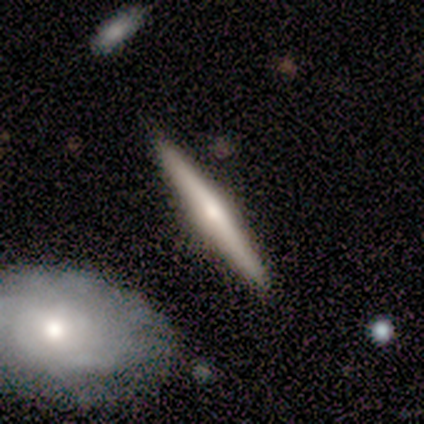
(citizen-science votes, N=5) smooth-or-featured: smooth: 60% | featured or disk: 40% | star or artifact: 0%
  how-rounded: cigar-shaped: 100% | round: 0% | in between: 0%
  merging: none: 80% | major disturbance: 20% | minor disturbance: 0% | merger: 0%